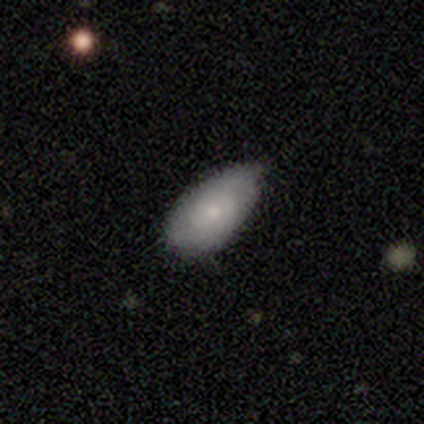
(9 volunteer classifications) Volunteers were most divided on "smooth or featured": smooth: 56%, featured or disk: 33%, star or artifact: 11%. More confident: how rounded — in between (100%); merging — none (62%).